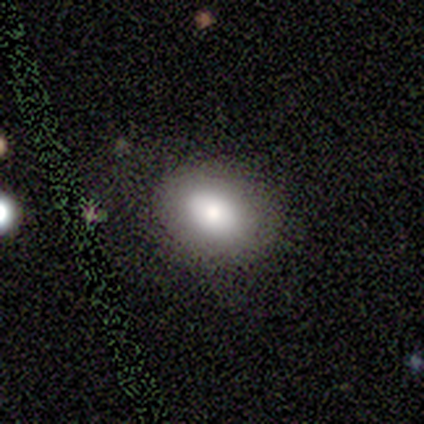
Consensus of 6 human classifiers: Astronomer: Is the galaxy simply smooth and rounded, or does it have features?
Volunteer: smooth — 67%.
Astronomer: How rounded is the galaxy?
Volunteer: in between — 100%.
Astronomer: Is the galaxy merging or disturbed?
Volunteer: none — 67%.